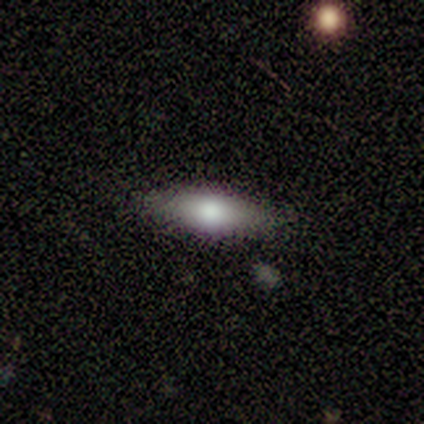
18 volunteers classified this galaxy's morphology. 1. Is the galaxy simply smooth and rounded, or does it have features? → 67% smooth, 28% featured or disk, 6% star or artifact.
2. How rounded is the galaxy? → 75% in between, 25% cigar-shaped, 0% round.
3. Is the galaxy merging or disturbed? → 94% none, 6% minor disturbance, 0% major disturbance, 0% merger.